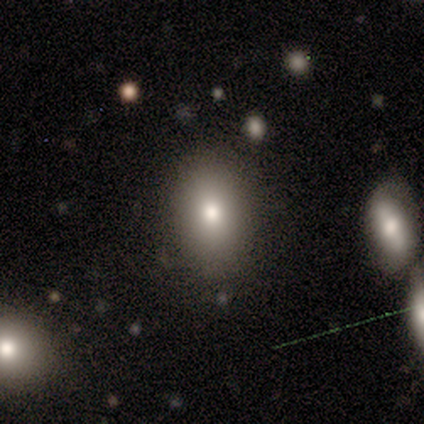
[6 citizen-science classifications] This appears to be a smooth galaxy with no disk features (50%) that is in between round and cigar-shaped (100%). Merging: none (80%).